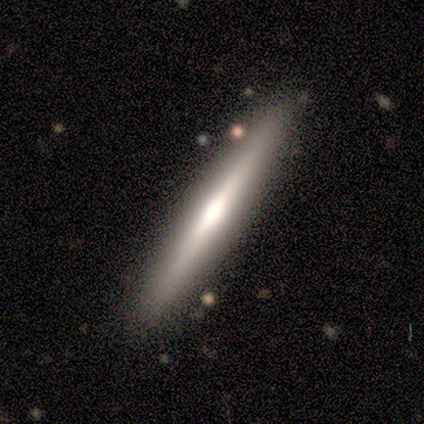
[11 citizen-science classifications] smooth-or-featured: featured or disk: 73% | smooth: 18% | star or artifact: 9%
  disk-edge-on: yes: 100% | no: 0%
    edge-on-bulge: rounded: 62% | boxy: 38% | none: 0%
  merging: none: 80% | minor disturbance: 20% | major disturbance: 0% | merger: 0%